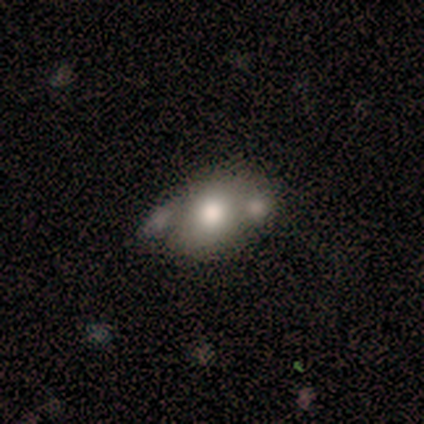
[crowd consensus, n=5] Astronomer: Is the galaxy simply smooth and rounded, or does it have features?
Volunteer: smooth — 40%, tied with featured or disk at 40%.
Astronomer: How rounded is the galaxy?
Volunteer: round — 50%, tied with in between at 50%.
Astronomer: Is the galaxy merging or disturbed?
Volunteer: minor disturbance — 50%.